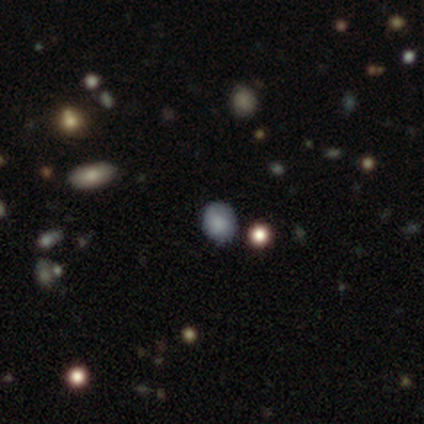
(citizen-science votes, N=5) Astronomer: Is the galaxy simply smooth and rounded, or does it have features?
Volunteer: smooth — 60% (runner-up: star or artifact, 40%).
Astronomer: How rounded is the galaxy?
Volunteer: round — 33%, tied with in between and cigar-shaped at 33%.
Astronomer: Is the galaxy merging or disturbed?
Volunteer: none — 100%.